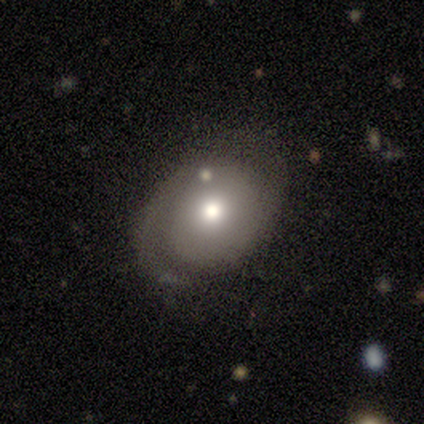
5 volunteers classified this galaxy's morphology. Smooth or featured? 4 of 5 (80%) said featured or disk. Edge-on disk? 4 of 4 (100%) said no. Bar? 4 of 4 (100%) said no. Spiral arms? 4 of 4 (100%) said yes. Spiral winding? 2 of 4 (50%, tied with medium) said tight. Spiral arm count? 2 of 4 (50%) said 2. Bulge size? 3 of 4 (75%) said small. Merging? 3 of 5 (60%) said none.